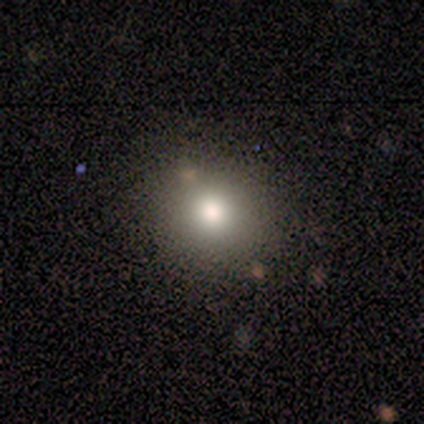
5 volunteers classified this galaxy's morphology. Smooth or featured?
  - smooth: 80% *
  - featured or disk: 20%
  - star or artifact: 0%
How rounded?
  - round: 100% *
  - in between: 0%
  - cigar-shaped: 0%
Merging?
  - none: 100% *
  - minor disturbance: 0%
  - major disturbance: 0%
  - merger: 0%